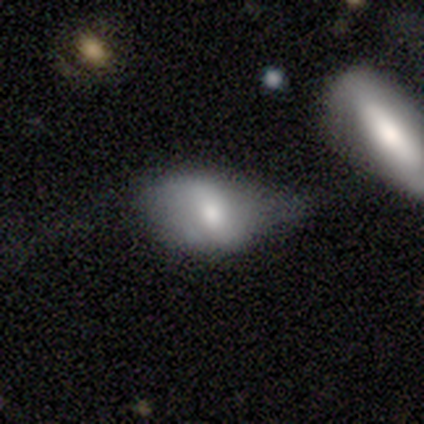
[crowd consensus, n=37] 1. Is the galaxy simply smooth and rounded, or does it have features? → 54% smooth, 38% featured or disk, 8% star or artifact.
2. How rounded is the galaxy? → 90% in between, 5% round, 5% cigar-shaped.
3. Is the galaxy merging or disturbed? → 50% minor disturbance, 24% none, 18% major disturbance, 9% merger.